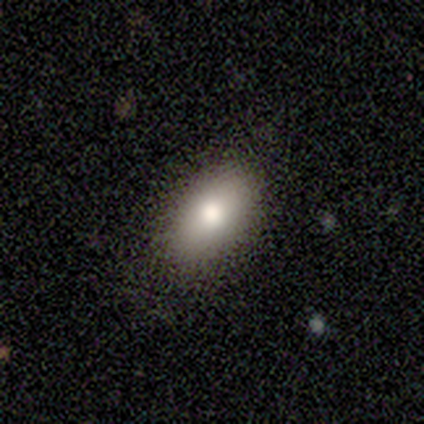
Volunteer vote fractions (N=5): This appears to be a smooth galaxy with no disk features (80%) that is in between round and cigar-shaped (100%). Merging: none (100%).